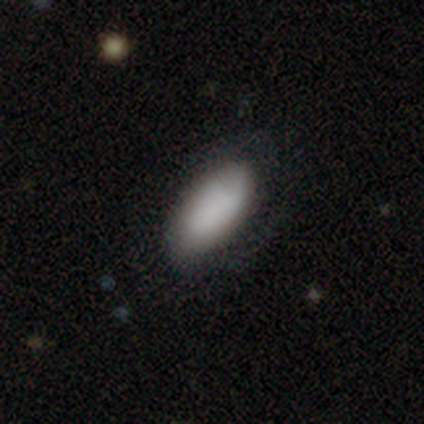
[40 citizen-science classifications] Smooth or featured: smooth — 82% (featured or disk — 15%)
How rounded: in between — 94% (round — 3%)
Merging: none — 72% (minor disturbance — 18%)